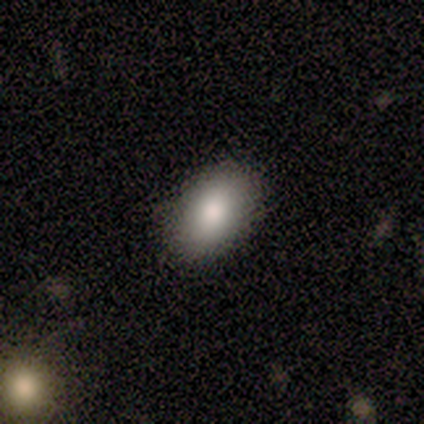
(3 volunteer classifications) smooth-or-featured: smooth: 100% | featured or disk: 0% | star or artifact: 0%
  how-rounded: in between: 100% | round: 0% | cigar-shaped: 0%
  merging: none: 67% | minor disturbance: 33% | major disturbance: 0% | merger: 0%